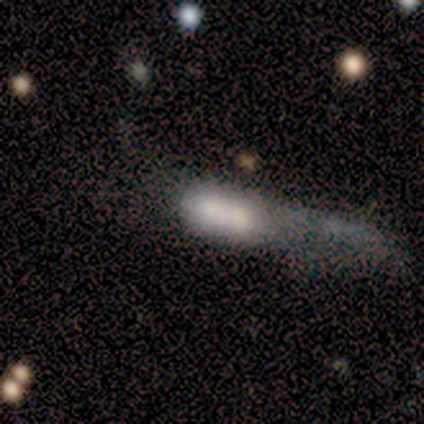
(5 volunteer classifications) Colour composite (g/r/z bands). It shows a featured or disk galaxy (60%) with a weak bar (67%), no spiral arms (100%) and no central bulge (67%). Merging: major disturbance (40%, tied with merger).